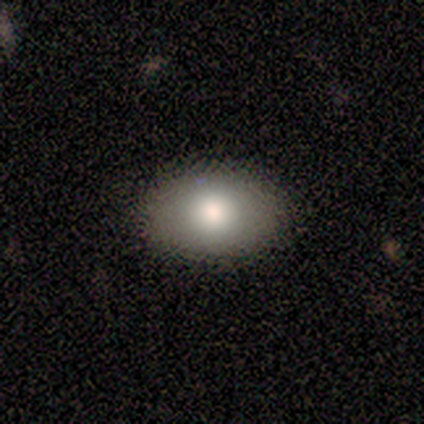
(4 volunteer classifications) smooth 100%, featured or disk 0%, star or artifact 0%. Down the decision tree: how rounded — in between (100%); merging — none (100%).